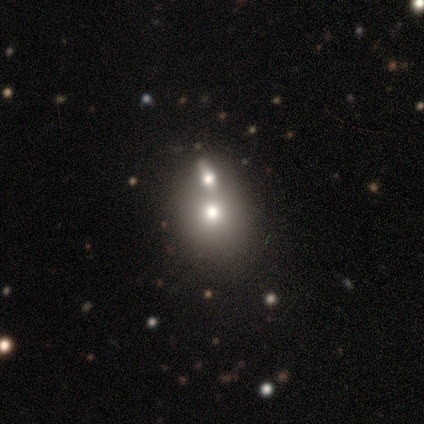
Overall: smooth (60%; featured or disk 20%). How rounded: round (67%; in between 33%). Merging: none (50%, tied with merger).